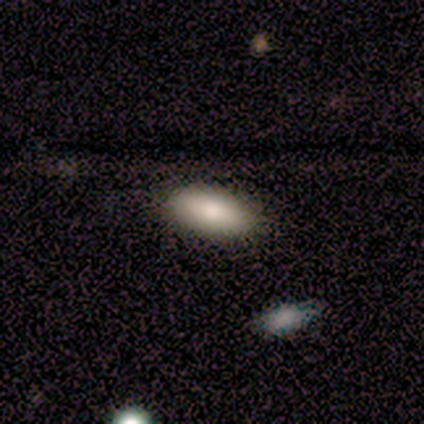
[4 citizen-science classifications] A smooth galaxy with no disk features (50%) that is in between round and cigar-shaped (100%).

Vote fractions:
- Smooth or featured? smooth: 50% / featured or disk: 25% / star or artifact: 25%
- How rounded? in between: 100% / round: 0% / cigar-shaped: 0%
- Merging? none: 67% / minor disturbance: 33% / major disturbance: 0% / merger: 0%